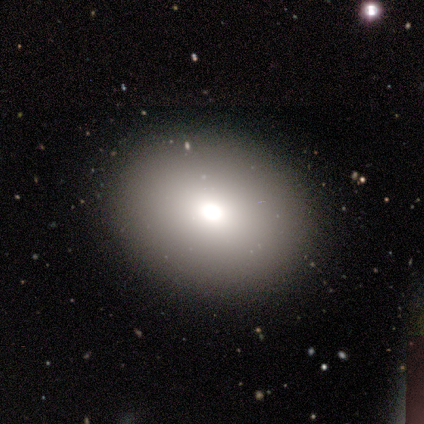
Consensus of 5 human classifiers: Smooth or featured: smooth — 80% (star or artifact — 20%)
How rounded: in between — 100%
Merging: none — 100%